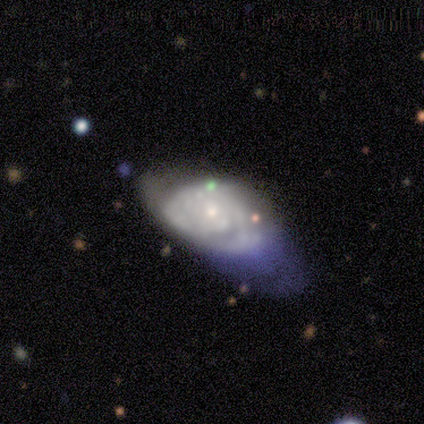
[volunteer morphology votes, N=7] Overall: featured or disk (86%). Edge-on disk: no (100%). Bar: no (100%). Spiral arms: no (83%). Bulge size: small (83%). Merging: major disturbance (71%).